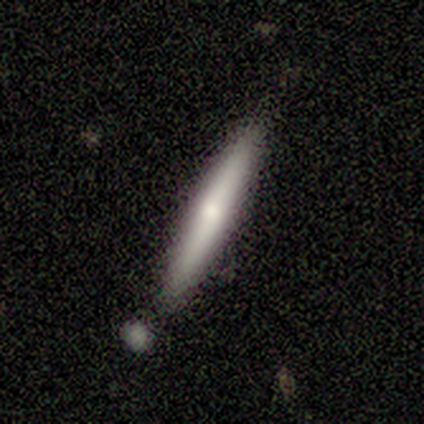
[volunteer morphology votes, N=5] Smooth or featured: smooth — 60% (featured or disk — 40%)
How rounded: cigar-shaped — 100%
Merging: none — 100%